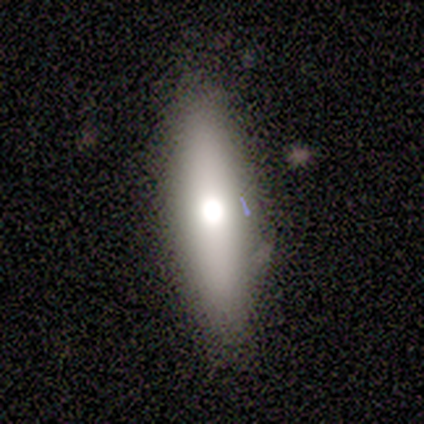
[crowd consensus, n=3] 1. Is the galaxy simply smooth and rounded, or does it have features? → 67% featured or disk, 33% smooth, 0% star or artifact.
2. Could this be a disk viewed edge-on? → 50% yes (tied), 50% no (tied).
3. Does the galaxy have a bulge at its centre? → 100% rounded, 0% boxy, 0% none.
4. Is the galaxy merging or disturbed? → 100% none, 0% minor disturbance, 0% major disturbance, 0% merger.